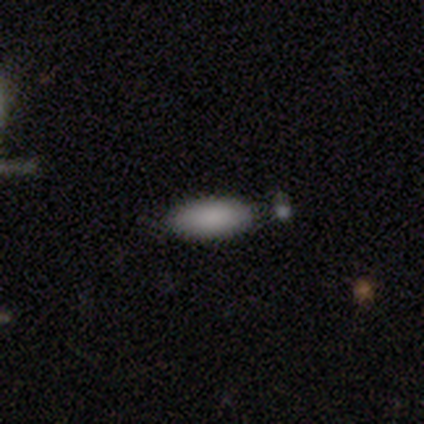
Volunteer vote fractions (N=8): Smooth or featured?
  - smooth: 100% *
  - featured or disk: 0%
  - star or artifact: 0%
How rounded?
  - in between: 62% *
  - cigar-shaped: 38%
  - round: 0%
Merging?
  - none: 88% *
  - minor disturbance: 12%
  - major disturbance: 0%
  - merger: 0%